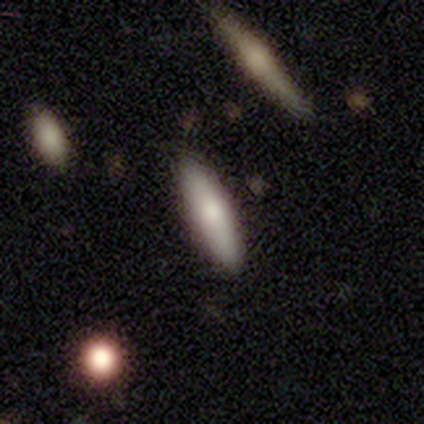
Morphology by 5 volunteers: A smooth galaxy with no disk features (60%) that is in between round and cigar-shaped (67%). Merging: none (100%).